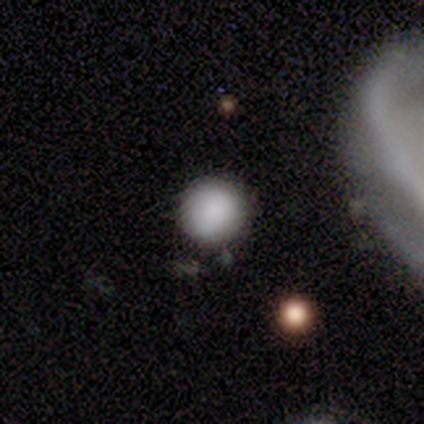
Q: Smooth or featured?
A: smooth (100%)
Q: How rounded?
A: round (100%)
Q: Merging?
A: none (80%); runner-up: minor disturbance (20%)